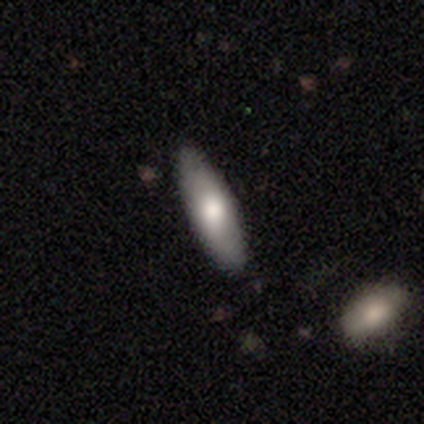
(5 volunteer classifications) smooth 80%, star or artifact 20%, featured or disk 0%. Down the decision tree: how rounded — in between (50%, tied with cigar-shaped); merging — none (100%).